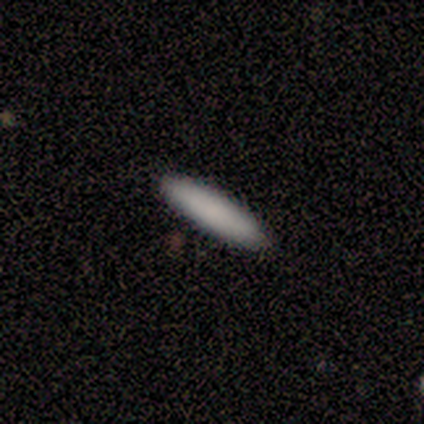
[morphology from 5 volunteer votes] This appears to be a smooth galaxy with no disk features (100%) that is cigar-shaped (100%). Merging: none (100%).